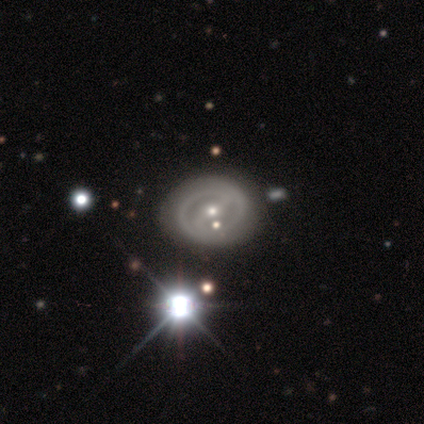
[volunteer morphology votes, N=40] Overall: featured or disk (82%). Edge-on disk: no (97%). Bar: strong (69%; weak 31%). Spiral arms: yes (78%). Spiral arm count: 2 (84%). Spiral winding: tight (68%; medium 32%). Bulge size: small (59%; moderate 41%). Merging: none (76%).